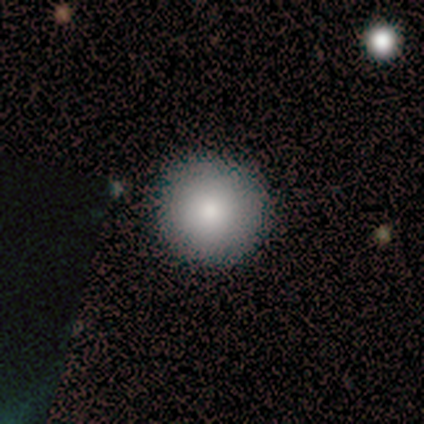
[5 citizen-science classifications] A smooth galaxy with no disk features (80%) that is round (100%).

Vote fractions:
- Smooth or featured? smooth: 80% / star or artifact: 20% / featured or disk: 0%
- How rounded? round: 100% / in between: 0% / cigar-shaped: 0%
- Merging? none: 100% / minor disturbance: 0% / major disturbance: 0% / merger: 0%